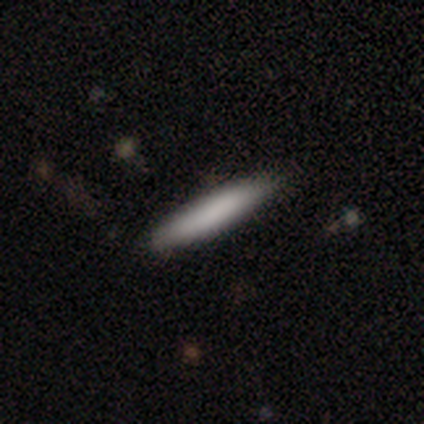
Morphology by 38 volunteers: Smooth or featured?
  - smooth: 79% *
  - featured or disk: 13%
  - star or artifact: 8%
How rounded?
  - cigar-shaped: 93% *
  - round: 3%
  - in between: 3%
Merging?
  - none: 91% *
  - minor disturbance: 9%
  - major disturbance: 0%
  - merger: 0%